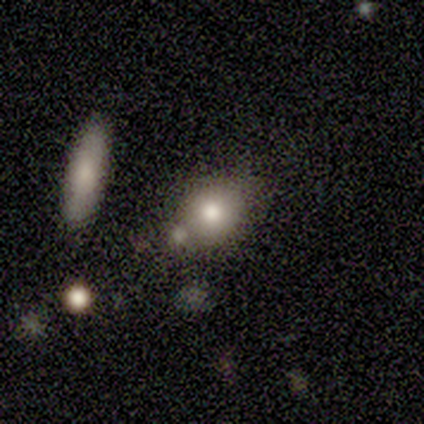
Q: Smooth or featured?
A: smooth (75%); runner-up: featured or disk (25%)
Q: How rounded?
A: round (67%); runner-up: in between (33%)
Q: Merging?
A: none (100%)